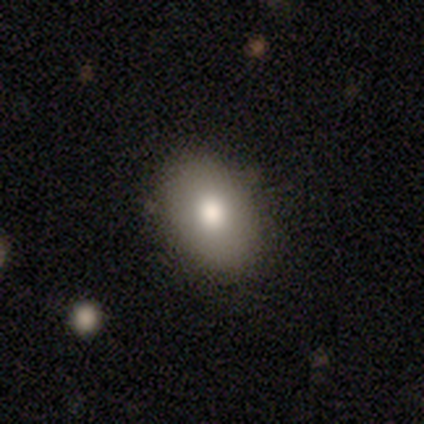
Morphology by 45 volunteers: Smooth or featured?
  - smooth: 82% *
  - star or artifact: 11%
  - featured or disk: 7%
How rounded?
  - in between: 81% *
  - round: 16%
  - cigar-shaped: 3%
Merging?
  - none: 85% *
  - minor disturbance: 10%
  - merger: 5%
  - major disturbance: 0%